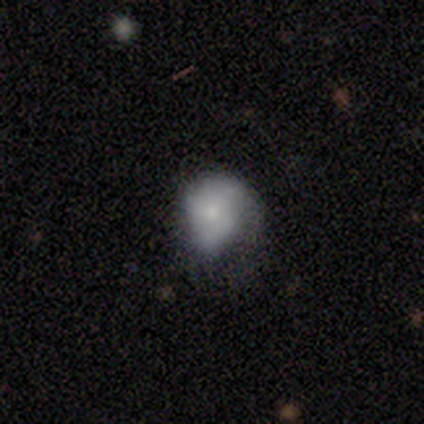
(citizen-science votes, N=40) Q: Smooth or featured?
A: featured or disk (50%); runner-up: smooth (45%)
Q: Edge-on disk?
A: no (95%); runner-up: yes (5%)
Q: Bar?
A: no (63%); runner-up: weak (32%)
Q: Spiral arms?
A: yes (79%); runner-up: no (21%)
Q: Spiral winding?
A: medium (40%); runner-up: loose (33%)
Q: Spiral arm count?
A: 3 (40%); runner-up: 2 (33%)
Q: Bulge size?
A: small (63%); runner-up: moderate (16%)
Q: Merging?
A: none (42%); runner-up: minor disturbance (34%)